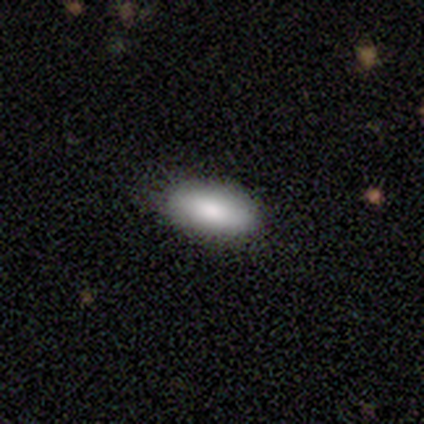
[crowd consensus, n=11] smooth_or_featured: smooth (p=0.91) [alt: featured or disk p=0.09]
how_rounded: in between (p=0.80) [alt: round p=0.10]
merging: none (p=0.73) [alt: minor disturbance p=0.27]